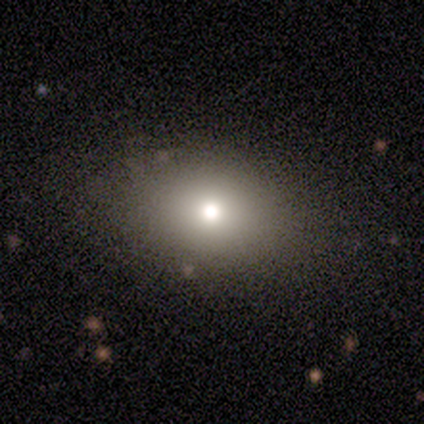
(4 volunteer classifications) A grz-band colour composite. It shows a smooth galaxy with no disk features (100%) that is in between round and cigar-shaped (100%). Merging: none (100%).